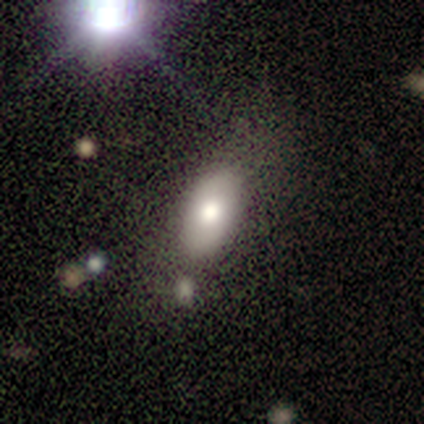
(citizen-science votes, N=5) Smooth or featured? 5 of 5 (100%) said smooth. How rounded? 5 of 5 (100%) said in between. Merging? 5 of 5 (100%) said none.